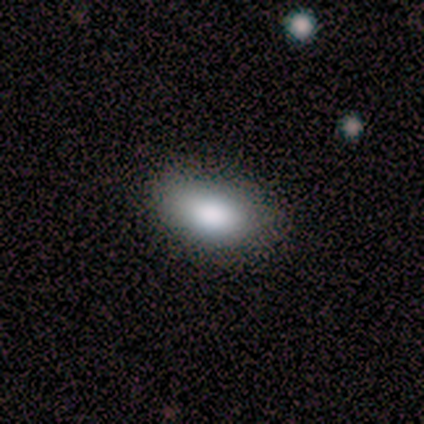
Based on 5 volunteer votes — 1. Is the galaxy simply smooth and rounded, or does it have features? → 80% smooth, 20% star or artifact, 0% featured or disk.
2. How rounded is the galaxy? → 100% in between, 0% round, 0% cigar-shaped.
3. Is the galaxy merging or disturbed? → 100% none, 0% minor disturbance, 0% major disturbance, 0% merger.